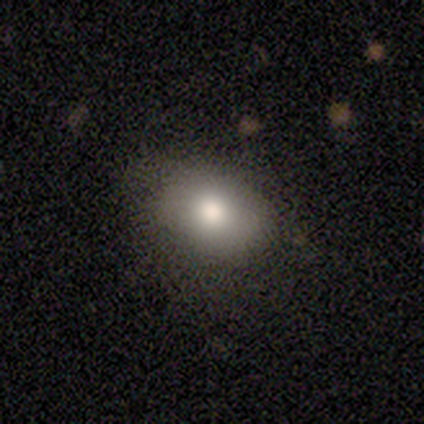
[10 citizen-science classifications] Q: Smooth or featured?
A: smooth (70%); runner-up: star or artifact (20%)
Q: How rounded?
A: in between (71%); runner-up: round (29%)
Q: Merging?
A: none (88%); runner-up: minor disturbance (12%)